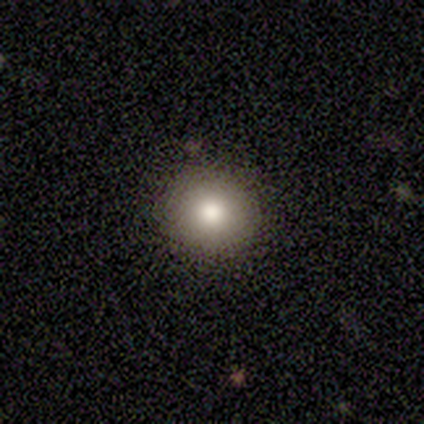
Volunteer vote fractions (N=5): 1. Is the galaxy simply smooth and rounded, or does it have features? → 80% smooth, 20% star or artifact, 0% featured or disk.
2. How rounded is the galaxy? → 100% round, 0% in between, 0% cigar-shaped.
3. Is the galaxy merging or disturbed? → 75% none, 25% merger, 0% minor disturbance, 0% major disturbance.